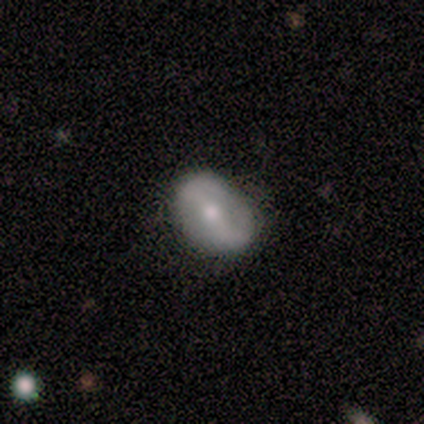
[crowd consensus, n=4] Smooth or featured?
  - featured or disk: 75% *
  - smooth: 25%
  - star or artifact: 0%
Edge-on disk?
  - no: 67% *
  - yes: 33%
Bar?
  - weak: 50% * (tied)
  - no: 50% * (tied)
  - strong: 0%
Spiral arms?
  - yes: 100% *
  - no: 0%
Spiral winding?
  - medium: 50% * (tied)
  - loose: 50% * (tied)
  - tight: 0%
Spiral arm count?
  - 2: 100% *
  - 1: 0%
  - 3: 0%
  - 4: 0%
  - more than 4: 0%
  - can't tell: 0%
Bulge size?
  - moderate: 50% * (tied)
  - small: 50% * (tied)
  - dominant: 0%
  - large: 0%
  - none: 0%
Merging?
  - none: 100% *
  - minor disturbance: 0%
  - major disturbance: 0%
  - merger: 0%